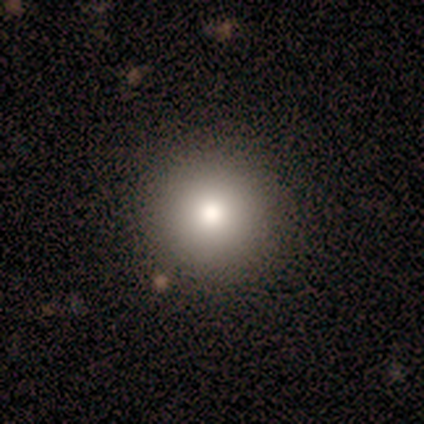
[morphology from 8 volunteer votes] Overall: smooth (62%; star or artifact 25%). How rounded: round (100%). Merging: none (100%).